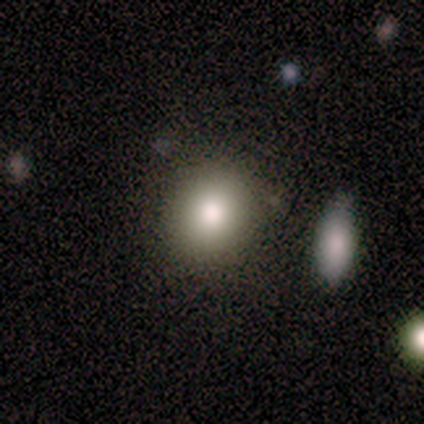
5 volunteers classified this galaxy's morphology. Smooth or featured? 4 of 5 (80%) said smooth. How rounded? 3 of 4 (75%) said round. Merging? 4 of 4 (100%) said none.